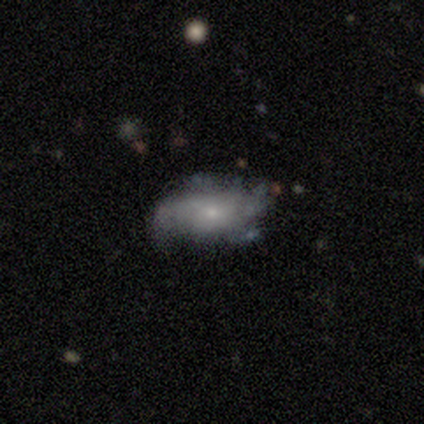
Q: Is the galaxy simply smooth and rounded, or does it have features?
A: featured or disk — 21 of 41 (51%).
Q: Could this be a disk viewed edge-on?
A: no — 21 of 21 (100%).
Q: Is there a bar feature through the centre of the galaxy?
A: no — 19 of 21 (90%).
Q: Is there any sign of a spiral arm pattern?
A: yes — 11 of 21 (52%).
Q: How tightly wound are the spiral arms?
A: medium — 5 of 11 (45%).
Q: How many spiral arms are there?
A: can't tell — 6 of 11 (55%).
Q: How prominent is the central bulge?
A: small — 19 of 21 (90%).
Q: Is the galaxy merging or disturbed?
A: none — 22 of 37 (59%).